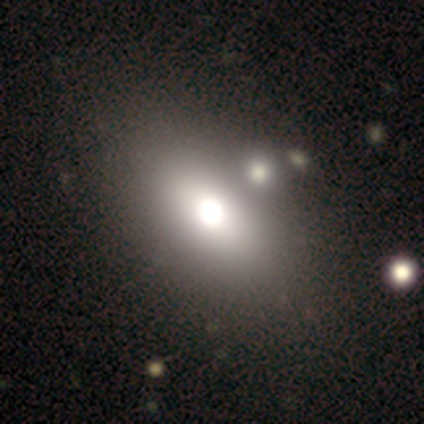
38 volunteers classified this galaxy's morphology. type=smooth (76%); roundness=in between (76%); merging=none (58%).